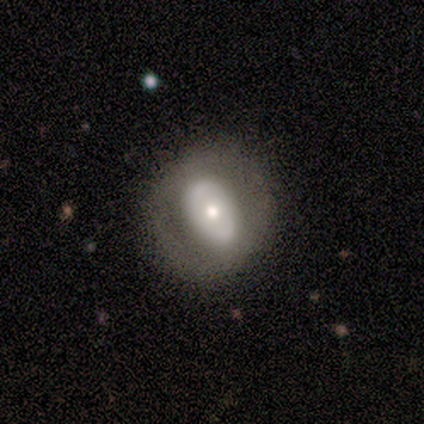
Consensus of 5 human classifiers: Smooth or featured: featured or disk — 80% (smooth — 20%)
Edge-on disk: no — 100%
Bar: no — 100%
Spiral arms: no — 75% (yes — 25%)
Bulge size: moderate — 50% (dominant — 25%)
Merging: none — 100%